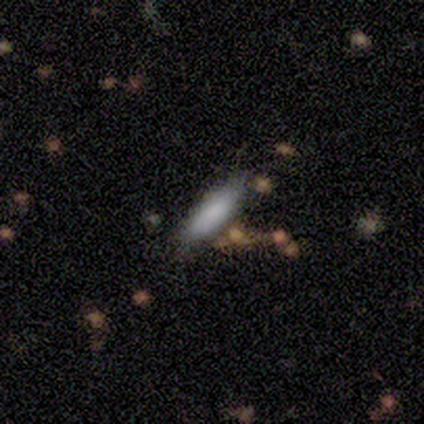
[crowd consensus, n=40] This is clearly a smooth galaxy (80%). How rounded: possibly cigar-shaped (56%). Merging: likely none (68%).